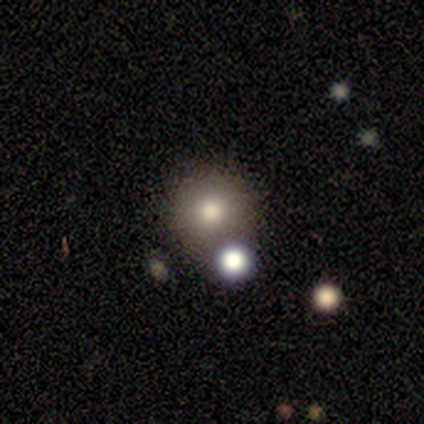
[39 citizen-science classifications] smooth_or_featured: smooth (p=0.90) [alt: star or artifact p=0.08]
how_rounded: round (p=0.97) [alt: in between p=0.03]
merging: none (p=0.53) [alt: merger p=0.19]